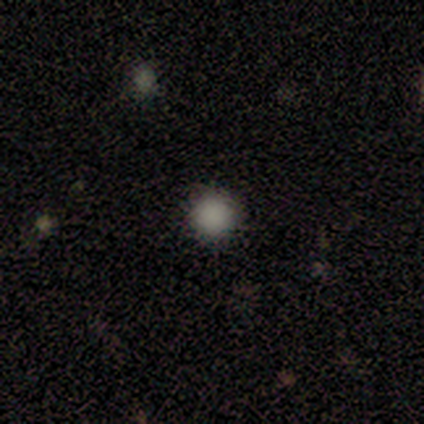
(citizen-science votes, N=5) A smooth galaxy with no disk features (40%, tied with star or artifact) that is round (100%). Merging: none (67%).